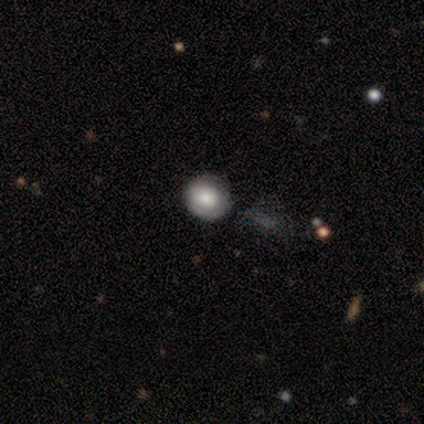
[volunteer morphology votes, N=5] Smooth or featured? smooth (100%)
How rounded? round (80%)
Merging? none (80%)